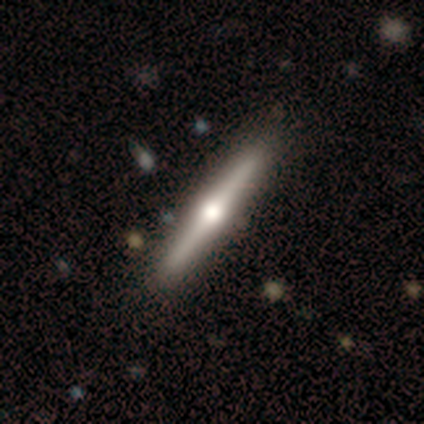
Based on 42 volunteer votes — Smooth or featured? 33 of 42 (79%) said featured or disk. Edge-on disk? 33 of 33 (100%) said yes. Edge-on bulge? 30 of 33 (91%) said rounded. Merging? 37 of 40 (92%) said none.